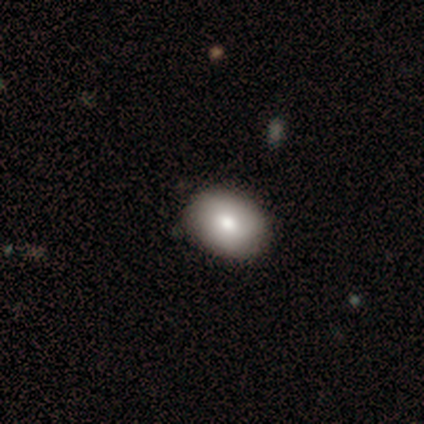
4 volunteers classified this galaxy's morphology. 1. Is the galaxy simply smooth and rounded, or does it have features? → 100% smooth, 0% featured or disk, 0% star or artifact.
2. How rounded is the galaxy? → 50% round (tied), 50% in between (tied), 0% cigar-shaped.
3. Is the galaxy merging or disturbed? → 75% none, 25% major disturbance, 0% minor disturbance, 0% merger.